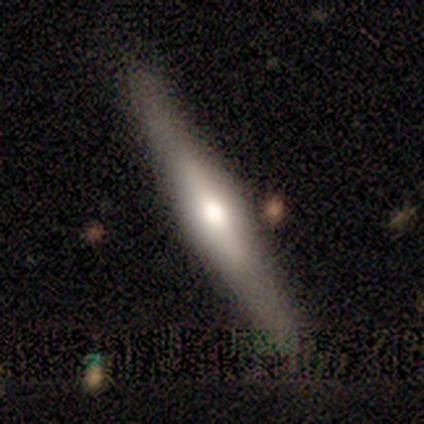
Q: Smooth or featured?
A: smooth (50%); tied with: featured or disk (50%)
Q: How rounded?
A: in between (50%); tied with: cigar-shaped (50%)
Q: Merging?
A: none (75%); runner-up: minor disturbance (25%)